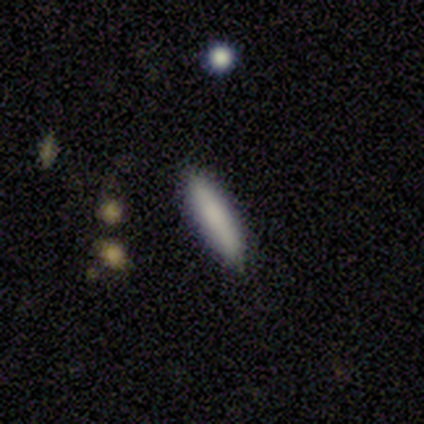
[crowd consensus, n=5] Smooth or featured? smooth (100%)
How rounded? cigar-shaped (60%)
Merging? none (100%)